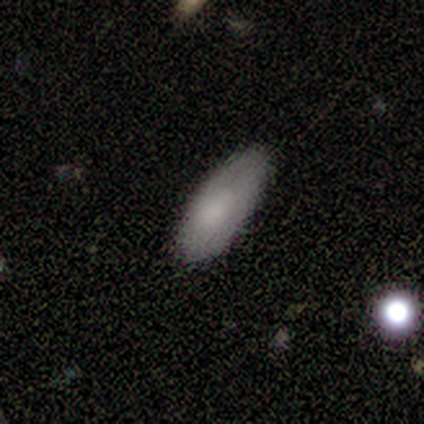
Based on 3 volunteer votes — This appears to be a smooth galaxy with no disk features (67%) that is in between round and cigar-shaped (50%, tied with cigar-shaped). Merging: minor disturbance (67%).